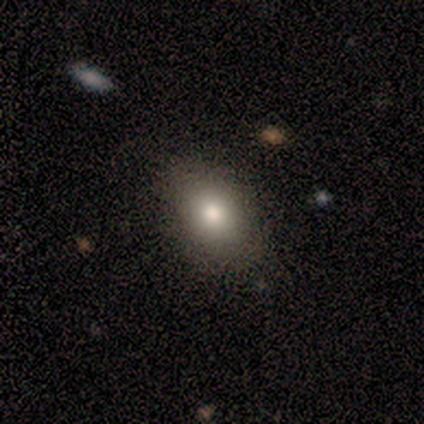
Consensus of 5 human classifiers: Overall: smooth (80%). How rounded: in between (75%). Merging: none (100%).